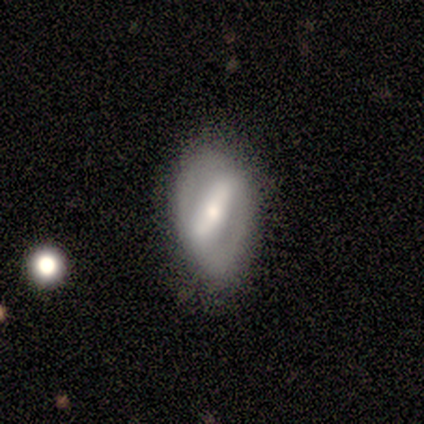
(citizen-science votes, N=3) A featured or disk galaxy (100%) with a strong bar (100%), 2 (100%) medium (100%) spiral arms (50%, tied with no) and a moderate central bulge (100%). Merging: none (67%).